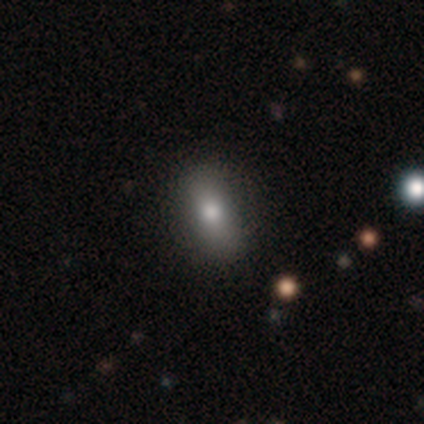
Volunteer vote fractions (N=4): This is possibly a smooth galaxy (50%). How rounded: clearly in between (100%). Merging: likely none (67%).